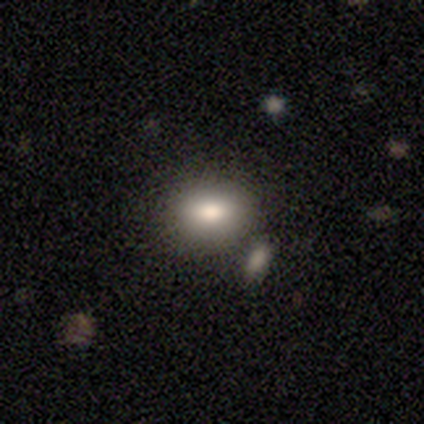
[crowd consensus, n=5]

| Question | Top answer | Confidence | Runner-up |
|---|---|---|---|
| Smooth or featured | smooth | 60% | featured or disk (40%) |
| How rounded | round | 33% | tied: in between (33%), cigar-shaped (33%) |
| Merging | none | 80% | merger (20%) |